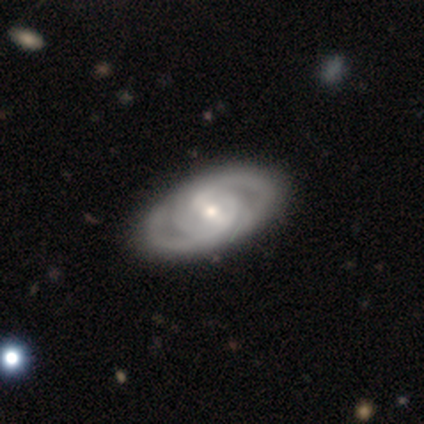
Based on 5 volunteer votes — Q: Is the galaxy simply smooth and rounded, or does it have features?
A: featured or disk — 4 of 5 (80%).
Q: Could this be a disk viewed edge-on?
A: no — 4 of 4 (100%).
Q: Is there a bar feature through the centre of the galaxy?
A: strong — 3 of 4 (75%).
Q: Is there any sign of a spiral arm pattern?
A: yes — 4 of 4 (100%).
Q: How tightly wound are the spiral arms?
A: medium — 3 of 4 (75%).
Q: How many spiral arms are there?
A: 2 — 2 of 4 (50%).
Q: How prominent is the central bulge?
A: moderate — 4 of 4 (100%).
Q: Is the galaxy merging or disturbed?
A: none — 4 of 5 (80%).